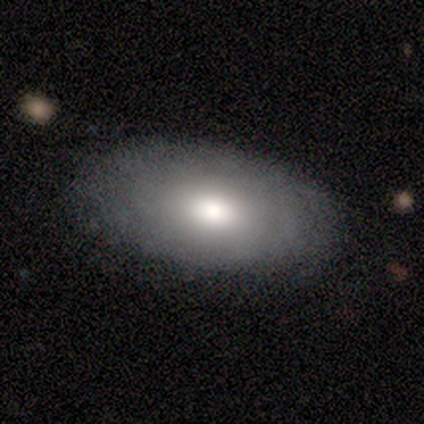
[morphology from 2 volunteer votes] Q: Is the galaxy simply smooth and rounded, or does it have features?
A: smooth — 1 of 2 (50%, tied with star or artifact).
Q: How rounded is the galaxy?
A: in between — 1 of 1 (100%).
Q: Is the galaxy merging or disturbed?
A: none — 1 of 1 (100%).